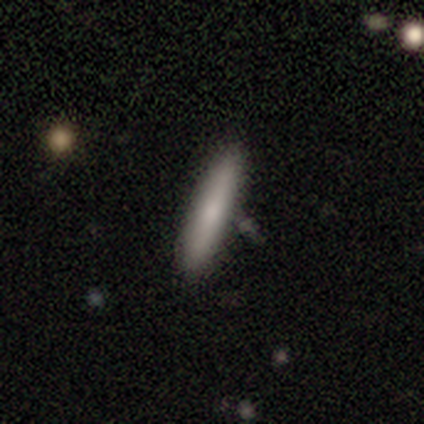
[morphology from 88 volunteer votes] smooth 82%, featured or disk 17%, star or artifact 1%. Down the decision tree: how rounded — cigar-shaped (94%); merging — none (86%).